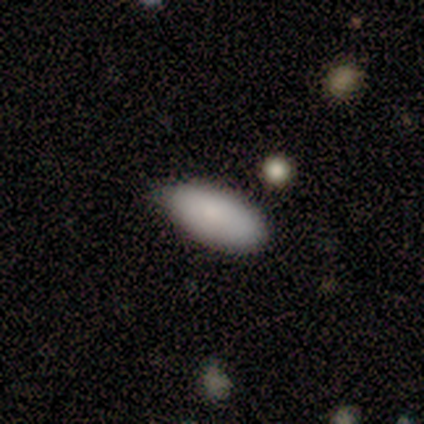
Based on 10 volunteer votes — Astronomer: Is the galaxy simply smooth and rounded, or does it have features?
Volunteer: smooth — 100%.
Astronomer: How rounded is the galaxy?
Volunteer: in between — 100%.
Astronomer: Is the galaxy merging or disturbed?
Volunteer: none — 70%.